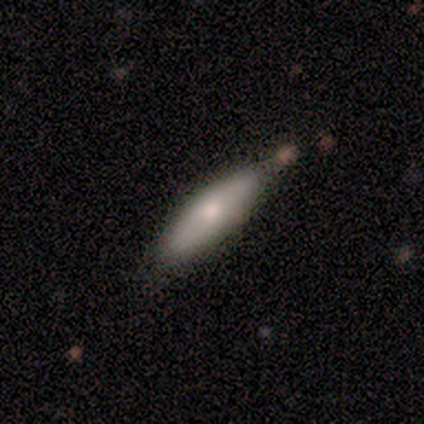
smooth-or-featured: smooth: 100% | featured or disk: 0% | star or artifact: 0%
  how-rounded: cigar-shaped: 75% | in between: 25% | round: 0%
  merging: none: 100% | minor disturbance: 0% | major disturbance: 0% | merger: 0%